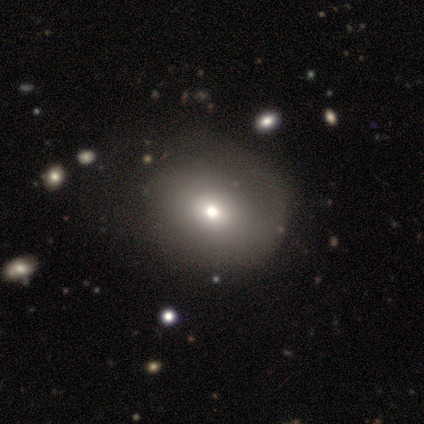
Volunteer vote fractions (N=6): Smooth or featured? 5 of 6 (83%) said smooth. How rounded? 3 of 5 (60%) said round. Merging? 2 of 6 (33%, tied with minor disturbance and major disturbance) said none.